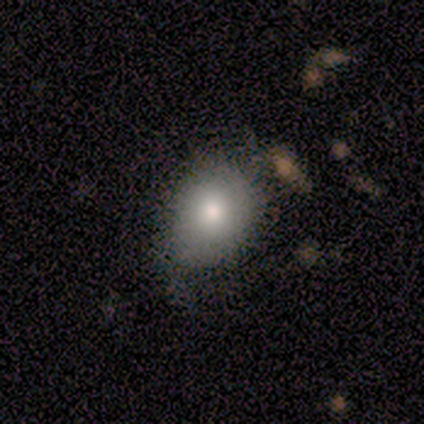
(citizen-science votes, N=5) smooth 80%, star or artifact 20%, featured or disk 0%. Down the decision tree: how rounded — in between (75%); merging — none (100%).